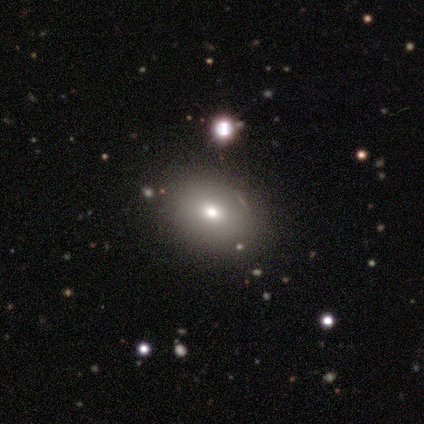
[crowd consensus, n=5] This is likely a smooth galaxy (60%). How rounded: likely round (67%). Merging: possibly none (50%, tied with minor disturbance).